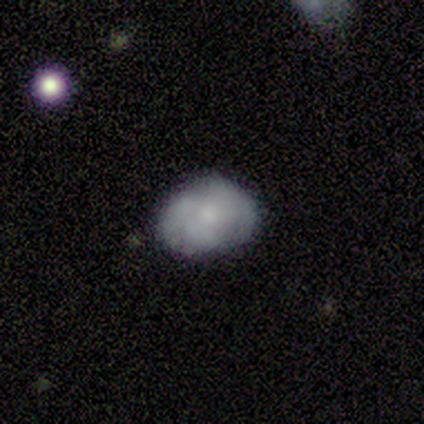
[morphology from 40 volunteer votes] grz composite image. It shows a smooth galaxy with no disk features (57%) that is in between round and cigar-shaped (61%). Merging: none (71%).